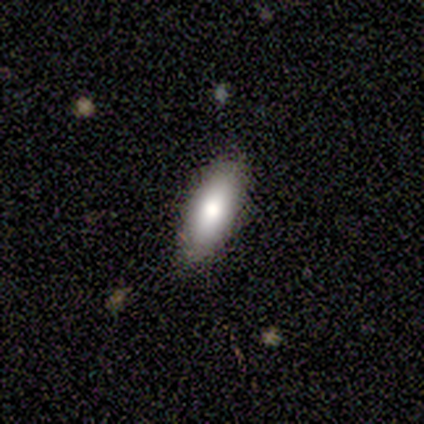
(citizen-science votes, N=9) Q: Smooth or featured?
A: smooth (67%); runner-up: featured or disk (22%)
Q: How rounded?
A: in between (67%); runner-up: cigar-shaped (33%)
Q: Merging?
A: none (100%)